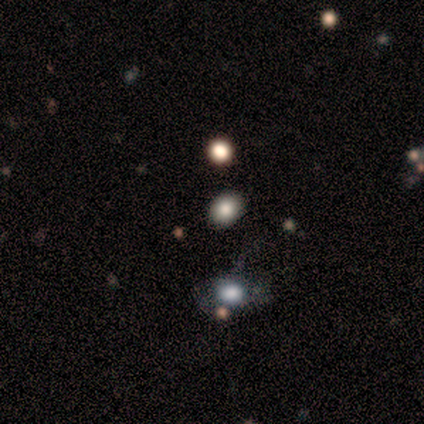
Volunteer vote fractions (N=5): This is likely a smooth galaxy (60%). How rounded: likely in between (67%). Merging: clearly none (100%).